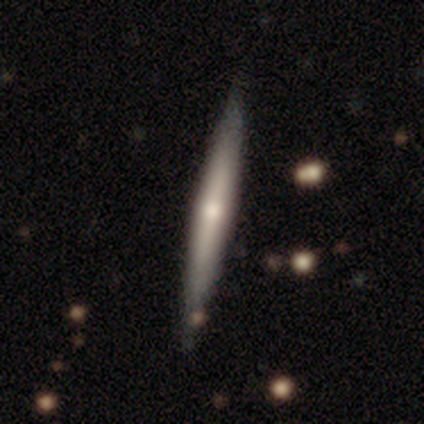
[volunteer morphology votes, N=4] Overall: featured or disk (50%; smooth 25%). Edge-on disk: yes (100%). Edge-on bulge: none (50%, tied with rounded). Merging: none (100%).